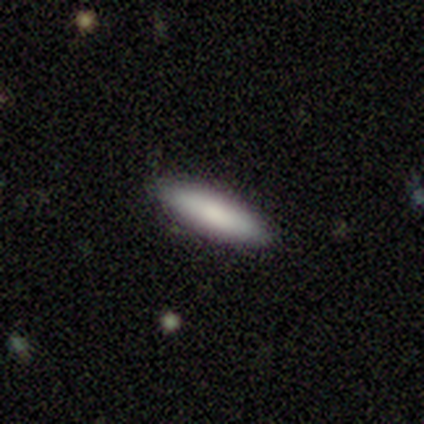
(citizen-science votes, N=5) Q: Smooth or featured?
A: smooth (80%); runner-up: featured or disk (20%)
Q: How rounded?
A: in between (50%); tied with: cigar-shaped (50%)
Q: Merging?
A: none (80%); runner-up: minor disturbance (20%)